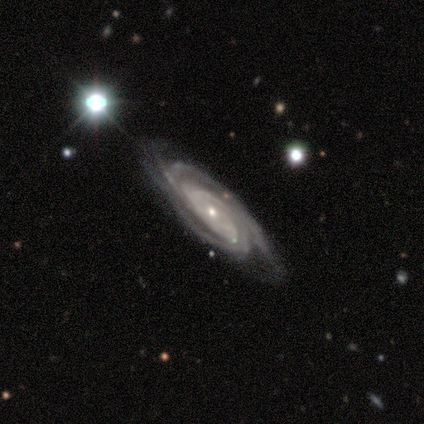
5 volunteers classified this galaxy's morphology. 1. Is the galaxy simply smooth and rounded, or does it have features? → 100% featured or disk, 0% smooth, 0% star or artifact.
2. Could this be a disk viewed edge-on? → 80% no, 20% yes.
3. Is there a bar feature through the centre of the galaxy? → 75% no, 25% strong, 0% weak.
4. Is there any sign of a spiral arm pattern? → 100% yes, 0% no.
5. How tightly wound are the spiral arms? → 50% tight (tied), 50% medium (tied), 0% loose.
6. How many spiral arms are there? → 25% 2 (tied), 25% 3 (tied), 25% 4 (tied), 25% can't tell (tied), 0% 1, 0% more than 4.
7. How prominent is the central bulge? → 100% small, 0% dominant, 0% large, 0% moderate, 0% none.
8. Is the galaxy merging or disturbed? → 80% none, 20% minor disturbance, 0% major disturbance, 0% merger.